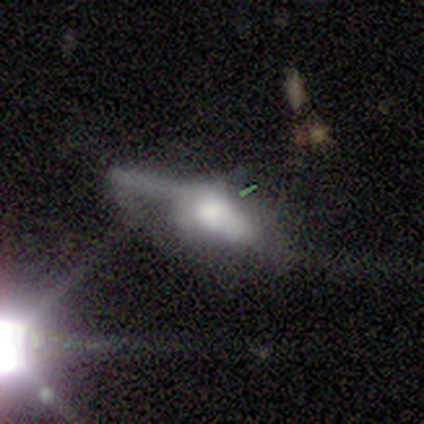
This appears to be a smooth galaxy with no disk features (75%) that is in between round and cigar-shaped (100%). Merging: minor disturbance (50%).